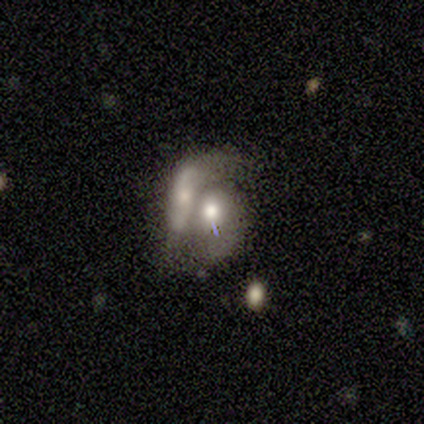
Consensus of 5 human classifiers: Smooth or featured?
  - featured or disk: 100% *
  - smooth: 0%
  - star or artifact: 0%
Edge-on disk?
  - no: 100% *
  - yes: 0%
Bar?
  - no: 80% *
  - weak: 20%
  - strong: 0%
Spiral arms?
  - no: 80% *
  - yes: 20%
Bulge size?
  - moderate: 60% *
  - large: 20%
  - small: 20%
  - dominant: 0%
  - none: 0%
Merging?
  - merger: 100% *
  - none: 0%
  - minor disturbance: 0%
  - major disturbance: 0%